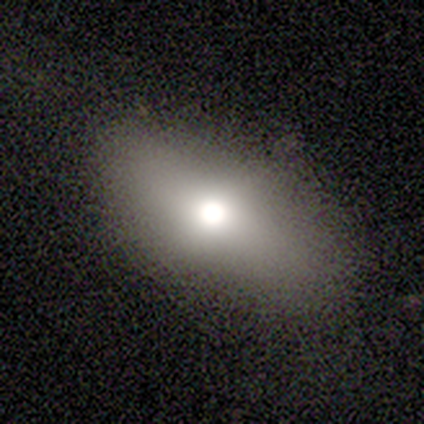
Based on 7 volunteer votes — Smooth or featured: smooth — 57% (featured or disk — 43%)
How rounded: in between — 75% (cigar-shaped — 25%)
Merging: none — 100%